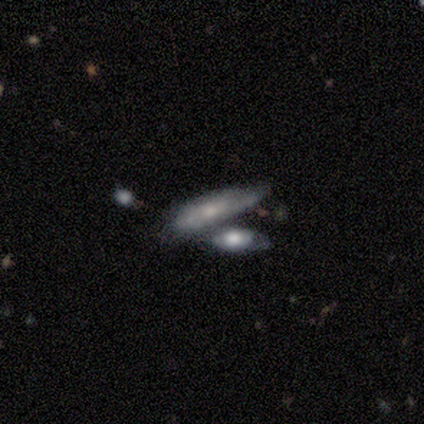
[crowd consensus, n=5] A featured or disk galaxy (60%) with a weak bar (50%, tied with no), 2 (100%) medium (100%) spiral arms (50%, tied with no) and a moderate central bulge (50%, tied with small). Merging: merger (80%).